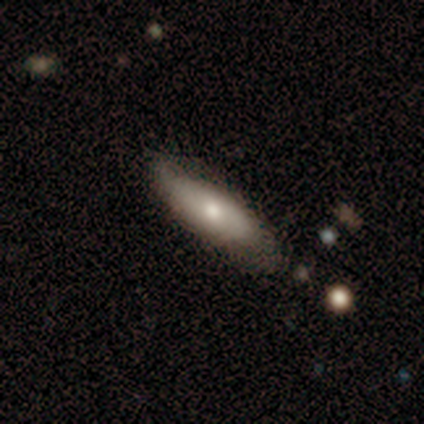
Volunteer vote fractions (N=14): This is possibly a smooth galaxy (57%). How rounded: likely in between (62%). Merging: possibly none (57%).